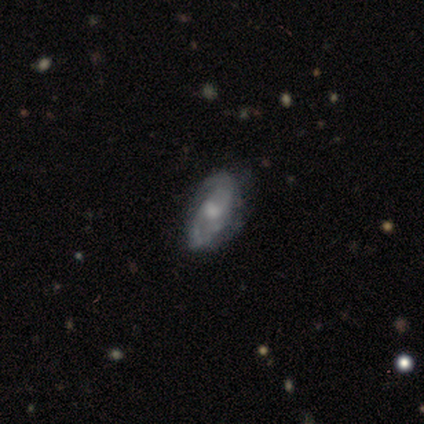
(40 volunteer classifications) Smooth or featured? 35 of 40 (88%) said featured or disk. Edge-on disk? 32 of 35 (91%) said no. Bar? 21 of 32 (66%) said no. Spiral arms? 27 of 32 (84%) said yes. Spiral winding? 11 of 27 (41%) said medium. Spiral arm count? 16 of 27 (59%) said 2. Bulge size? 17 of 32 (53%) said moderate. Merging? 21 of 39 (54%) said none.